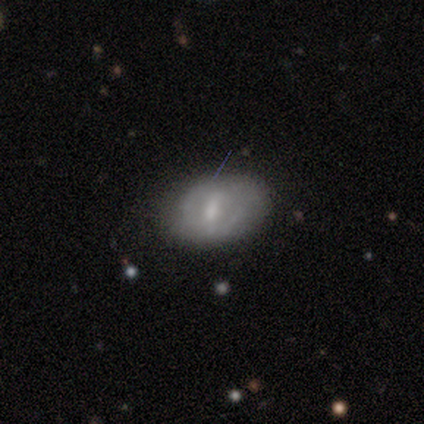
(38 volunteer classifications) This appears to be a featured or disk galaxy (53%) with a weak bar (61%), 2 (82%) medium (55%) spiral arms (61%) and a small central bulge (56%). Merging: none (70%).